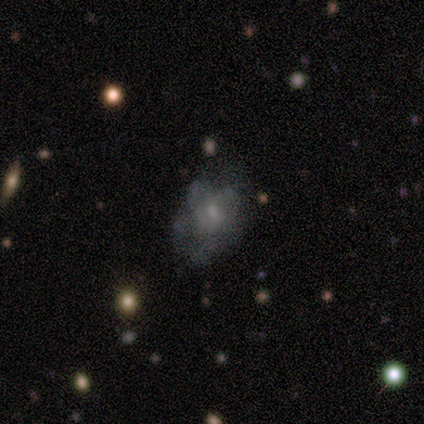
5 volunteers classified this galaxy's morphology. Smooth or featured?
  - smooth: 80% *
  - star or artifact: 20%
  - featured or disk: 0%
How rounded?
  - round: 50% * (tied)
  - in between: 50% * (tied)
  - cigar-shaped: 0%
Merging?
  - none: 50% *
  - minor disturbance: 25%
  - major disturbance: 25%
  - merger: 0%